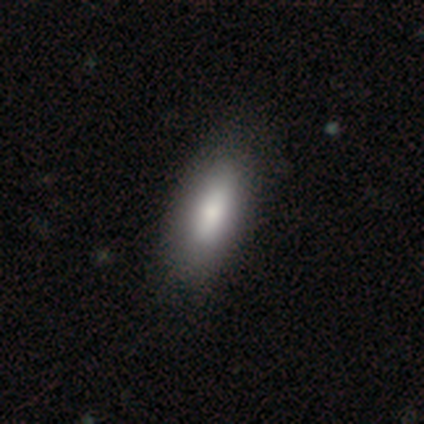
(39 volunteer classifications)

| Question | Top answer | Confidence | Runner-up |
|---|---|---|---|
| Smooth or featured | smooth | 72% | featured or disk (23%) |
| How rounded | in between | 89% | cigar-shaped (11%) |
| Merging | none | 70% | minor disturbance (5%) |